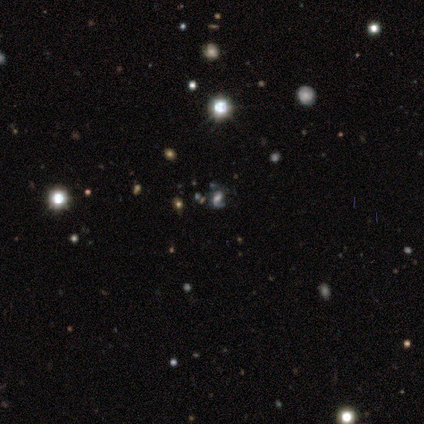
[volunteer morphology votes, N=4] This is possibly a featured or disk galaxy (50%, tied with star or artifact). It is clearly not viewed edge-on (100%). Bar: possibly strong (50%, tied with weak). Spiral arm pattern: clearly yes (100%). Spiral arm count: possibly 1 (50%, tied with 2). Spiral winding: possibly medium (50%, tied with loose). Central bulge: possibly large (50%, tied with moderate). Merging: possibly none (50%, tied with major disturbance).